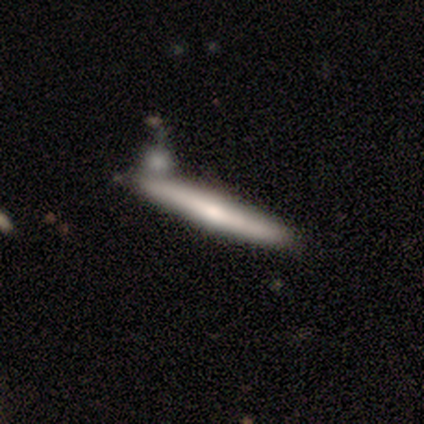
Q: Smooth or featured?
A: featured or disk (69%); runner-up: smooth (28%)
Q: Edge-on disk?
A: yes (89%); runner-up: no (11%)
Q: Edge-on bulge?
A: rounded (62%); runner-up: none (29%)
Q: Merging?
A: none (47%); runner-up: merger (24%)